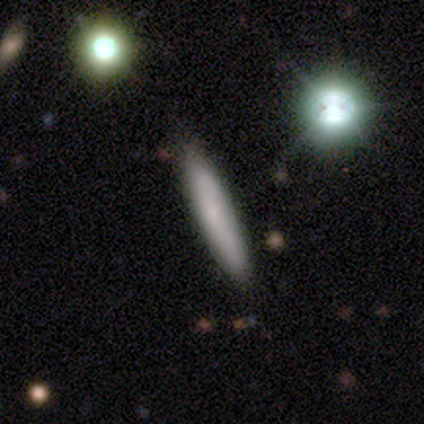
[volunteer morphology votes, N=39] Smooth or featured? smooth (87%)
How rounded? cigar-shaped (91%)
Merging? none (97%)